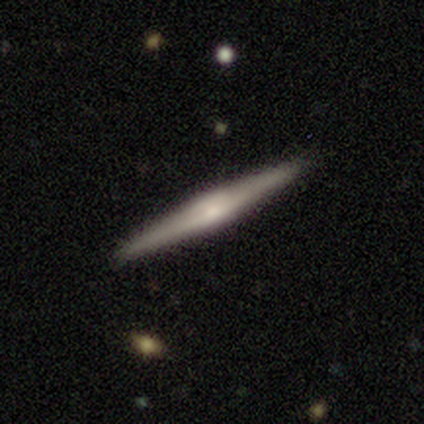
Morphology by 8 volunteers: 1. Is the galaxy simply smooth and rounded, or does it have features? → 62% featured or disk, 38% smooth, 0% star or artifact.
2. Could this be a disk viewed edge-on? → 100% yes, 0% no.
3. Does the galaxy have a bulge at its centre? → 60% rounded, 40% none, 0% boxy.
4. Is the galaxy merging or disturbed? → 88% none, 12% minor disturbance, 0% major disturbance, 0% merger.